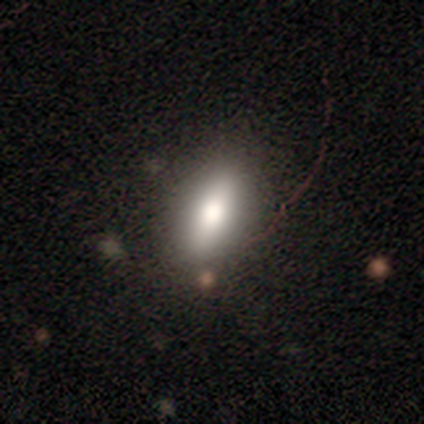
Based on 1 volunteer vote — Smooth or featured?
  - smooth: 100% *
  - featured or disk: 0%
  - star or artifact: 0%
How rounded?
  - in between: 100% *
  - round: 0%
  - cigar-shaped: 0%
Merging?
  - none: 100% *
  - minor disturbance: 0%
  - major disturbance: 0%
  - merger: 0%